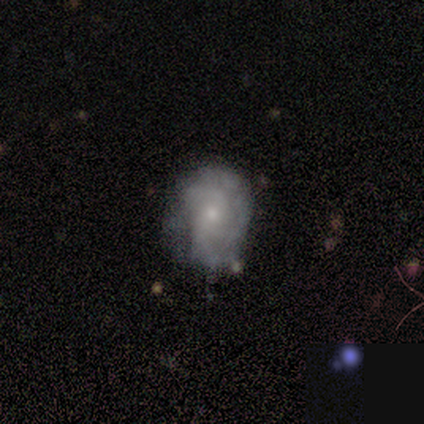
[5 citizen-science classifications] Volunteers were most divided on "merging" (2-way tie): none: 50%, minor disturbance: 50%, major disturbance: 0%, merger: 0%. More confident: edge-on disk — no (100%); spiral winding — tight (100%); spiral arm count — 3 (100%); bar — no (67%); spiral arms — yes (67%); bulge size — moderate (67%); smooth or featured — featured or disk (60%).